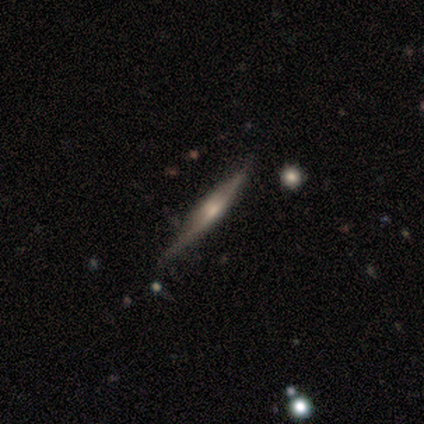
Morphology: type=featured or disk (50%); edge-on=yes (100%); edge-on bulge=rounded (100%); merging=none (67%).